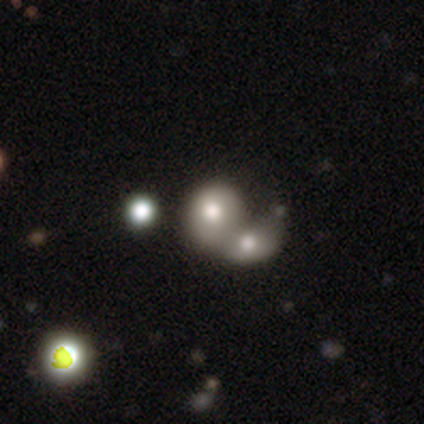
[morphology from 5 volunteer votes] A smooth galaxy with no disk features (80%) that is in between round and cigar-shaped (75%). Merging: merger (100%).